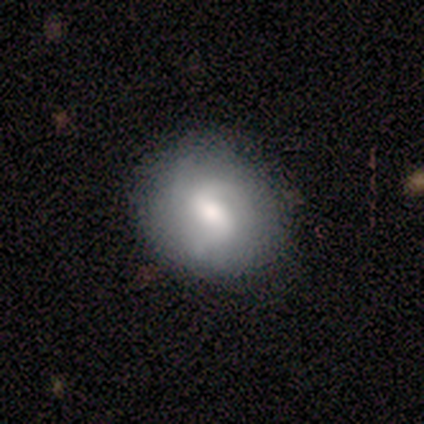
Smooth or featured? featured or disk (100%)
Edge-on disk? no (100%)
Bar? weak (75%)
Spiral arms? yes (75%)
Spiral winding? loose (67%)
Spiral arm count? 2 (33%, tied with 3 and can't tell)
Bulge size? large (75%)
Merging? none (75%)